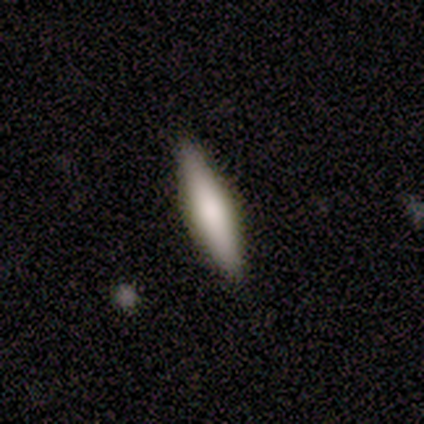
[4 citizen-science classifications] Overall: featured or disk (75%). Edge-on disk: yes (100%). Edge-on bulge: rounded (67%; boxy 33%). Merging: none (75%).